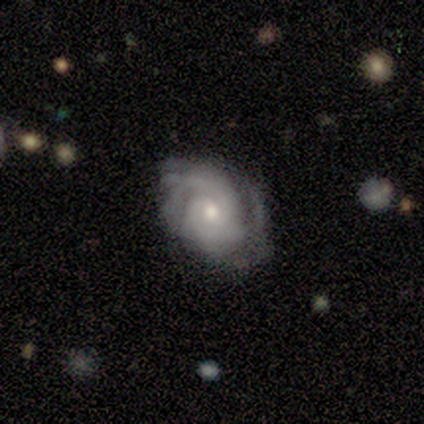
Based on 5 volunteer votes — Overall: featured or disk (100%). Edge-on disk: no (100%). Bar: no (100%). Spiral arms: yes (80%). Spiral arm count: can't tell (50%; 2 25%). Spiral winding: tight (75%). Bulge size: small (80%). Merging: minor disturbance (60%; none 40%).